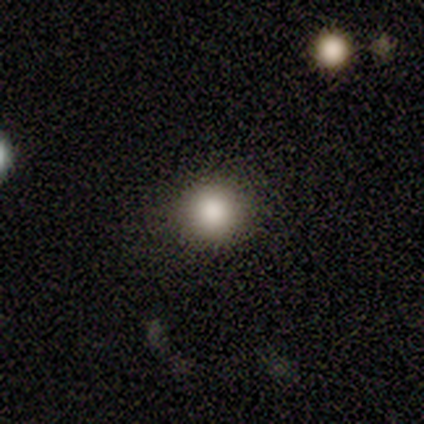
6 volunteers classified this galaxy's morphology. Smooth or featured? smooth (83%)
How rounded? round (100%)
Merging? none (67%)